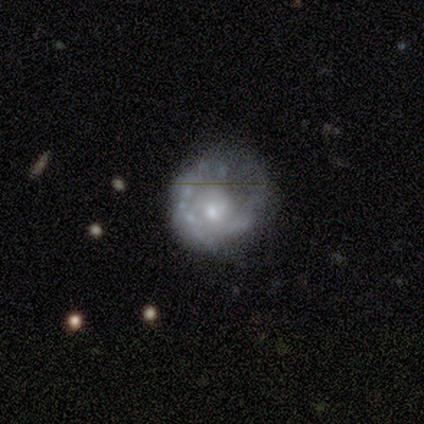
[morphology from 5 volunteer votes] smooth_or_featured: featured or disk (p=0.60) [alt: smooth p=0.20]
disk_edge_on: no (p=1.00)
bar: no (p=1.00)
has_spiral_arms: no (p=0.67) [alt: yes p=0.33]
bulge_size: moderate (p=0.67) [alt: small p=0.33]
merging: none (p=0.50) [alt: minor disturbance p=0.25]